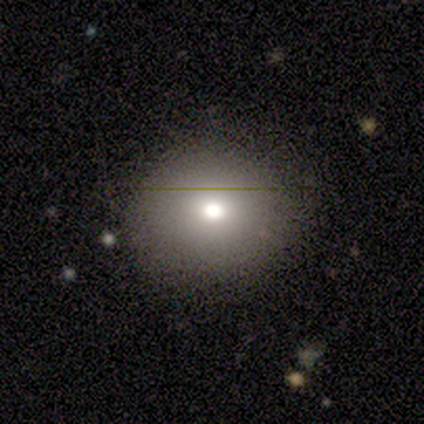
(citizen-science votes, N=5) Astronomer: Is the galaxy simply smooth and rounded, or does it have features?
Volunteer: smooth — 80%.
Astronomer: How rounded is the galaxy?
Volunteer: round — 100%.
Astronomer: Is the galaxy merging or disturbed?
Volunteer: none — 100%.